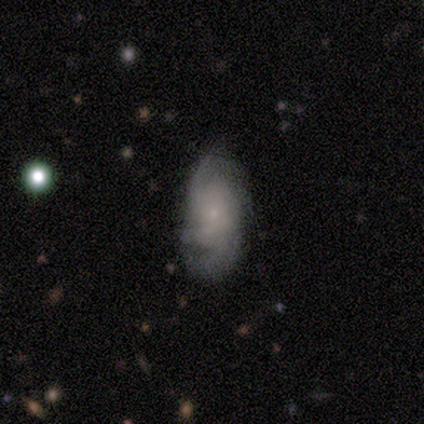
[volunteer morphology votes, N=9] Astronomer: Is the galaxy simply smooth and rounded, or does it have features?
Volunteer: featured or disk — 67%.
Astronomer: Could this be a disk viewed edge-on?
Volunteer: no — 100%.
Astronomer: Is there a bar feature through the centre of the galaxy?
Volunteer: no — 83%.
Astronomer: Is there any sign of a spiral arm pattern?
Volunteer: yes — 83%.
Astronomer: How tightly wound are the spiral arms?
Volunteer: tight — 60%.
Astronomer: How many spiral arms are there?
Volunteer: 2 — 60% (runner-up: can't tell, 40%).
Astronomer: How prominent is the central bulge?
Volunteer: small — 83%.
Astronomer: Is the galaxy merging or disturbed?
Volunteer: none — 78%.